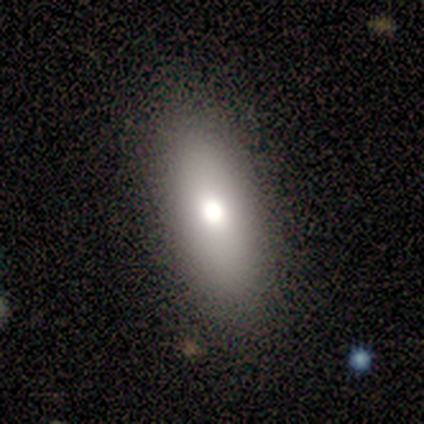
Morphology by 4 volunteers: Smooth or featured? smooth (75%)
How rounded? in between (100%)
Merging? none (100%)